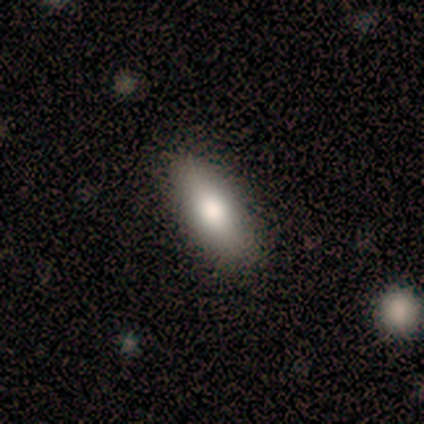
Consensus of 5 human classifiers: A smooth galaxy with no disk features (80%) that is in between round and cigar-shaped (100%). Merging: none (100%).